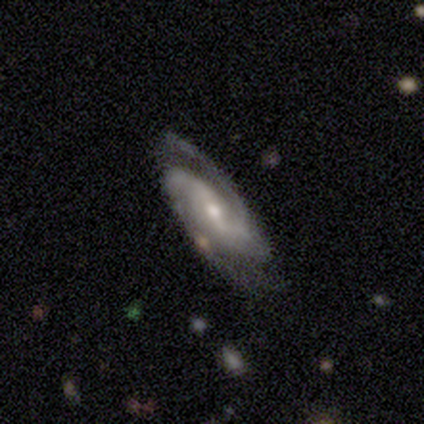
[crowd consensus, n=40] smooth_or_featured: featured or disk (p=0.97) [alt: star or artifact p=0.03]
disk_edge_on: no (p=0.95) [alt: yes p=0.05]
bar: weak (p=0.54) [alt: strong p=0.32]
has_spiral_arms: yes (p=0.95) [alt: no p=0.05]
spiral_winding: medium (p=0.51) [alt: tight p=0.26]
spiral_arm_count: 2 (p=0.86) [alt: 3 p=0.09]
bulge_size: moderate (p=0.59) [alt: small p=0.38]
merging: none (p=0.69) [alt: minor disturbance p=0.23]